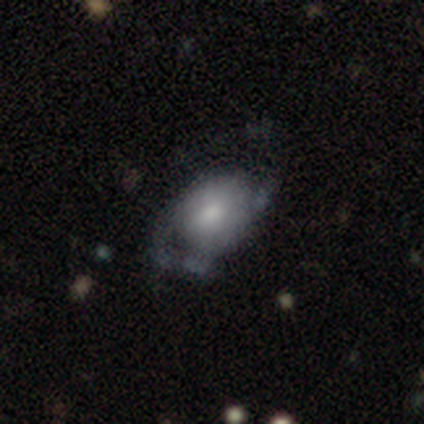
Smooth or featured: smooth — 60% (featured or disk — 40%)
How rounded: in between — 67% (round — 33%)
Merging: major disturbance — 60% (none — 20%)